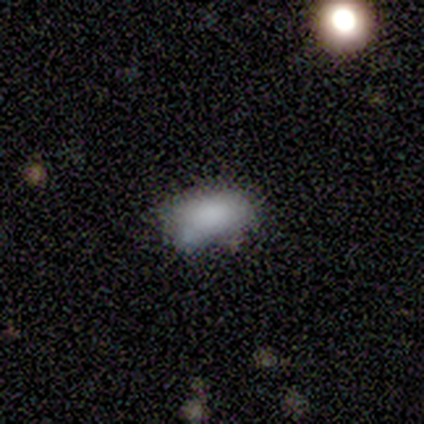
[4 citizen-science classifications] A smooth galaxy with no disk features (75%) that is in between round and cigar-shaped (100%).

Vote fractions:
- Smooth or featured? smooth: 75% / star or artifact: 25% / featured or disk: 0%
- How rounded? in between: 100% / round: 0% / cigar-shaped: 0%
- Merging? none: 100% / minor disturbance: 0% / major disturbance: 0% / merger: 0%